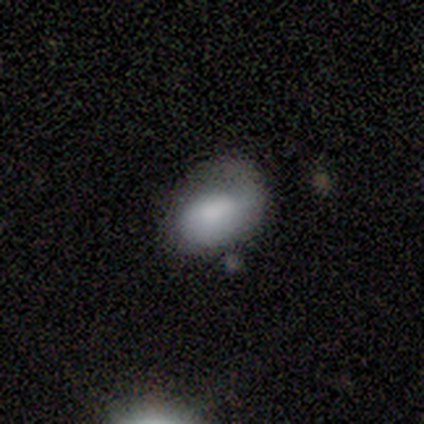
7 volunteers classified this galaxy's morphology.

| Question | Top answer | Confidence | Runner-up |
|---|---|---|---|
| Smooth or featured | smooth | 86% | featured or disk (14%) |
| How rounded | in between | 100% | — |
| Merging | major disturbance | 71% | none (29%) |